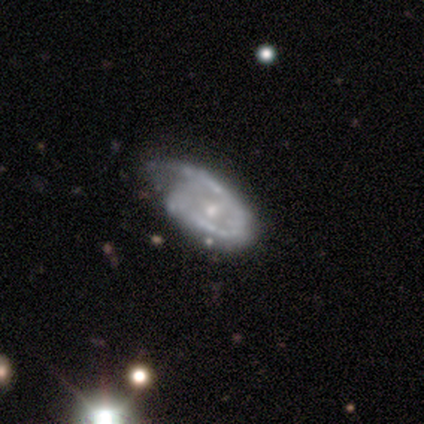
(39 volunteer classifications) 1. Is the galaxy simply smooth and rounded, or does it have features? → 85% featured or disk, 10% smooth, 5% star or artifact.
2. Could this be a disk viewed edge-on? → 100% no, 0% yes.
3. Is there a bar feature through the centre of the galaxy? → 70% no, 21% weak, 9% strong.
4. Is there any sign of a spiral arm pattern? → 67% yes, 33% no.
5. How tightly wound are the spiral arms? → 41% tight, 32% medium, 27% loose.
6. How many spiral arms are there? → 59% 1, 27% 2, 14% can't tell, 0% 3, 0% 4, 0% more than 4.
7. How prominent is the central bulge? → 76% small, 24% moderate, 0% dominant, 0% large, 0% none.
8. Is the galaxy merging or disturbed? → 57% minor disturbance, 24% none, 19% major disturbance, 0% merger.